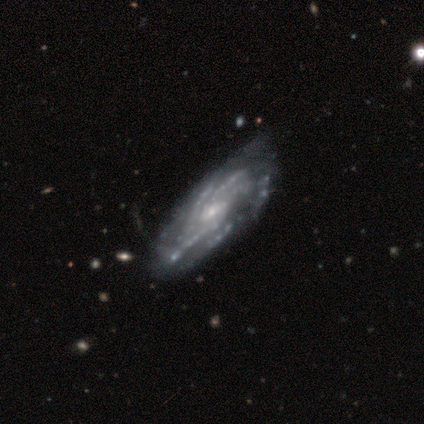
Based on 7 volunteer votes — Q: Smooth or featured?
A: featured or disk (100%)
Q: Edge-on disk?
A: no (100%)
Q: Bar?
A: weak (43%); tied with: no (43%)
Q: Spiral arms?
A: yes (86%); runner-up: no (14%)
Q: Spiral winding?
A: tight (67%); runner-up: medium (33%)
Q: Spiral arm count?
A: 4 (33%); tied with: more than 4 (33%); can't tell (33%)
Q: Bulge size?
A: small (71%); runner-up: moderate (29%)
Q: Merging?
A: none (57%); runner-up: minor disturbance (43%)